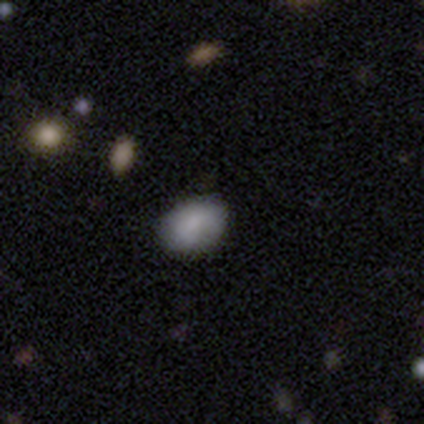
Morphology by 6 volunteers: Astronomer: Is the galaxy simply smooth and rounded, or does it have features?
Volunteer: smooth — 100%.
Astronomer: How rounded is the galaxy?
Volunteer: in between — 83%.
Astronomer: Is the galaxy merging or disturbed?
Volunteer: none — 83%.